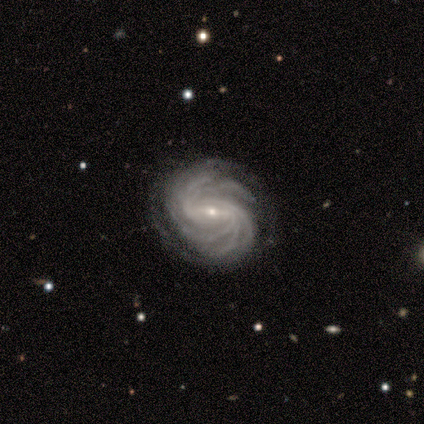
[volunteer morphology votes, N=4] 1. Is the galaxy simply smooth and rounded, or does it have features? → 100% featured or disk, 0% smooth, 0% star or artifact.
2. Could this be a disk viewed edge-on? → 75% no, 25% yes.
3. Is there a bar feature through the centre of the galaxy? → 67% weak, 33% strong, 0% no.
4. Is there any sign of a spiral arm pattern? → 100% yes, 0% no.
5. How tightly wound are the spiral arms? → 67% tight, 33% medium, 0% loose.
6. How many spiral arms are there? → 67% more than 4, 33% can't tell, 0% 1, 0% 2, 0% 3, 0% 4.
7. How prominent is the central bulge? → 100% small, 0% dominant, 0% large, 0% moderate, 0% none.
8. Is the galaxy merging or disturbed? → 100% none, 0% minor disturbance, 0% major disturbance, 0% merger.